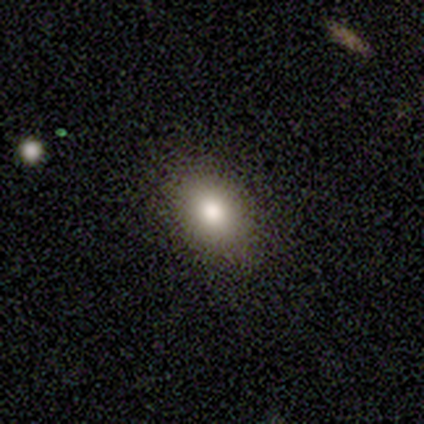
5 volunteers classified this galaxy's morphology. A smooth galaxy with no disk features (100%) that is in between round and cigar-shaped (80%).

Vote fractions:
- Smooth or featured? smooth: 100% / featured or disk: 0% / star or artifact: 0%
- How rounded? in between: 80% / round: 20% / cigar-shaped: 0%
- Merging? none: 100% / minor disturbance: 0% / major disturbance: 0% / merger: 0%